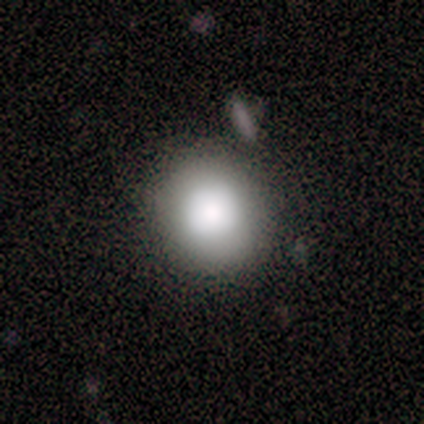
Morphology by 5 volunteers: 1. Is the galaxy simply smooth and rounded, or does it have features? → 100% smooth, 0% featured or disk, 0% star or artifact.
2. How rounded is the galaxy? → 100% round, 0% in between, 0% cigar-shaped.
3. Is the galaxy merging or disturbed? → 60% none, 20% minor disturbance, 20% merger, 0% major disturbance.